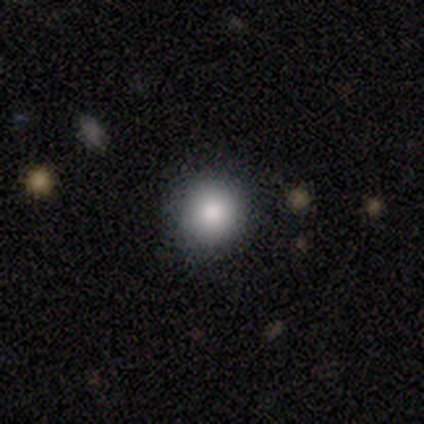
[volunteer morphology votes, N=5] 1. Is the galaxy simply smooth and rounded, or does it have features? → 80% smooth, 20% featured or disk, 0% star or artifact.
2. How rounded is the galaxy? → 100% round, 0% in between, 0% cigar-shaped.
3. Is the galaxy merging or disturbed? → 100% none, 0% minor disturbance, 0% major disturbance, 0% merger.